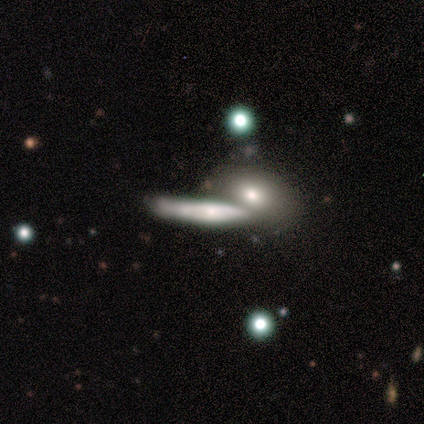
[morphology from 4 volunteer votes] A smooth galaxy with no disk features (75%) that is cigar-shaped (67%). Merging: none (50%, tied with merger).